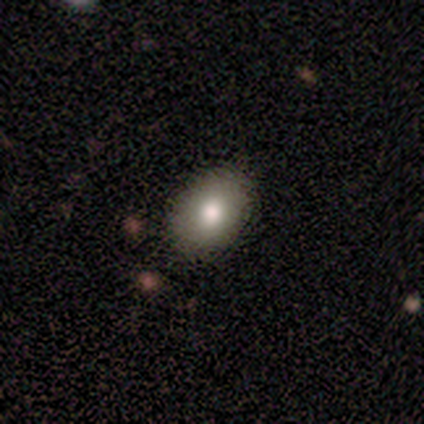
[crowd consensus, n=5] Morphology: type=smooth (100%); roundness=in between (80%); merging=none (80%).